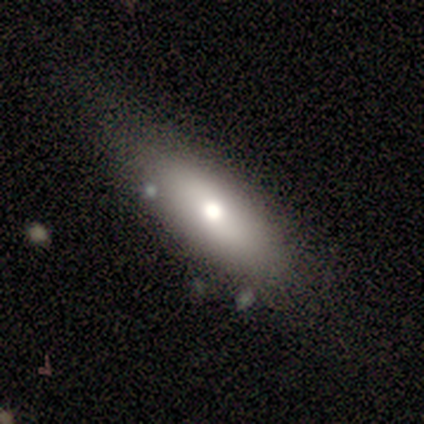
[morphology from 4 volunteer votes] smooth 50%, featured or disk 25%, star or artifact 25%. Down the decision tree: how rounded — cigar-shaped (100%); merging — none (67%).